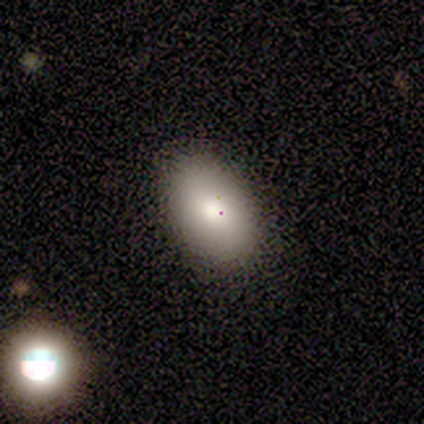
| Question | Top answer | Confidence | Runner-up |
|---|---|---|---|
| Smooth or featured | smooth | 100% | — |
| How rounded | in between | 80% | round (20%) |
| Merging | none | 80% | minor disturbance (20%) |